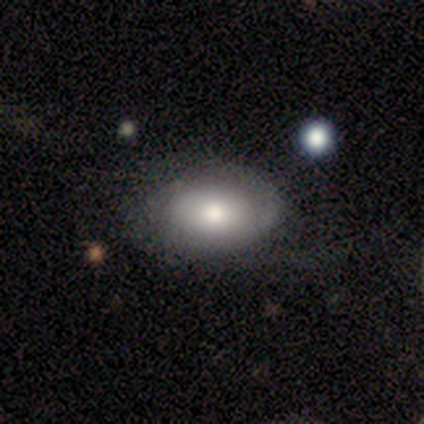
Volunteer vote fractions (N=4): Morphology: type=smooth (100%); roundness=in between (100%); merging=none (50%).